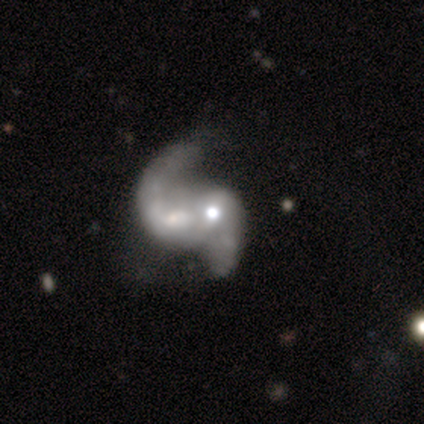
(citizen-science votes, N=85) Smooth or featured?
  - featured or disk: 86% *
  - smooth: 11%
  - star or artifact: 4%
Edge-on disk?
  - no: 99% *
  - yes: 1%
Bar?
  - no: 51% *
  - weak: 35%
  - strong: 14%
Spiral arms?
  - yes: 88% *
  - no: 12%
Spiral winding?
  - loose: 60% *
  - medium: 33%
  - tight: 6%
Spiral arm count?
  - 2: 78% *
  - can't tell: 14%
  - 1: 8%
  - 3: 0%
  - 4: 0%
  - more than 4: 0%
Bulge size?
  - moderate: 56% *
  - small: 26%
  - large: 8%
  - none: 7%
  - dominant: 3%
Merging?
  - merger: 54% *
  - none: 23%
  - major disturbance: 16%
  - minor disturbance: 7%